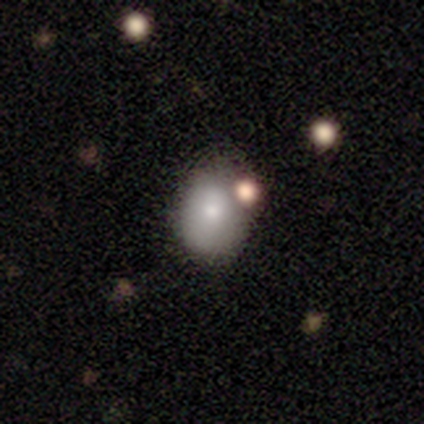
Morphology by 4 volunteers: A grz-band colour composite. It shows a smooth galaxy with no disk features (75%) that is in between round and cigar-shaped (67%). Merging: none (75%).